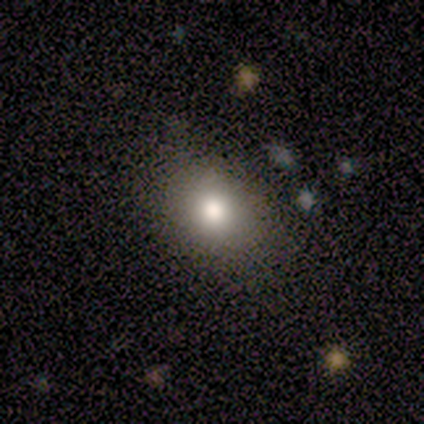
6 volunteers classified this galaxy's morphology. This is likely a smooth galaxy (67%). How rounded: likely in between (75%). Merging: clearly none (100%).